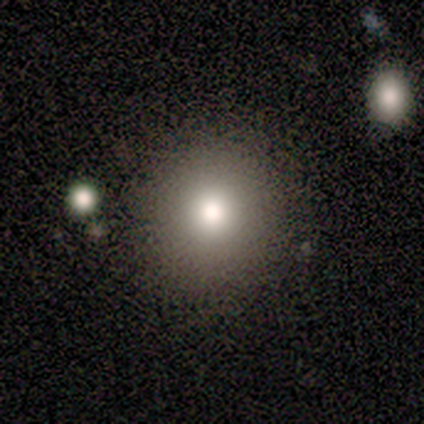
Morphology: type=smooth (86%); roundness=round (100%); merging=none (71%).